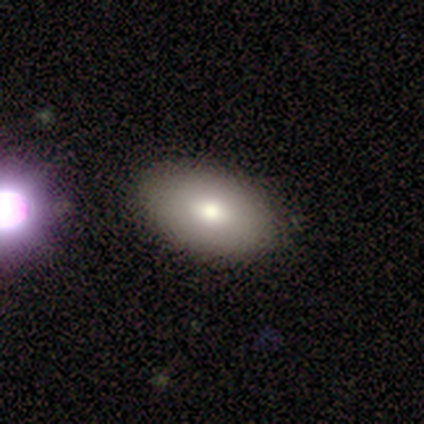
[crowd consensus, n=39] smooth-or-featured: smooth: 77% | featured or disk: 21% | star or artifact: 3%
  how-rounded: in between: 97% | round: 3% | cigar-shaped: 0%
  merging: none: 58% | major disturbance: 3% | minor disturbance: 0% | merger: 0%